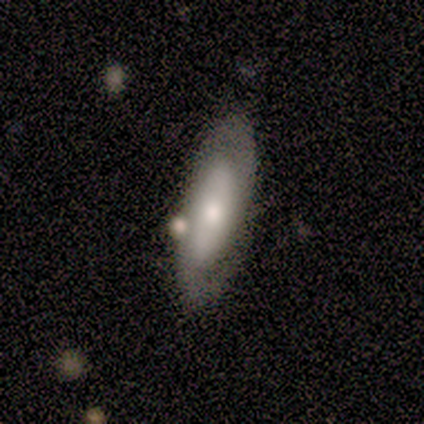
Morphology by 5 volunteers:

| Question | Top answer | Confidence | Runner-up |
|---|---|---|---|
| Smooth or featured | smooth | 60% | featured or disk (40%) |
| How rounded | cigar-shaped | 67% | in between (33%) |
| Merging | none | 100% | — |